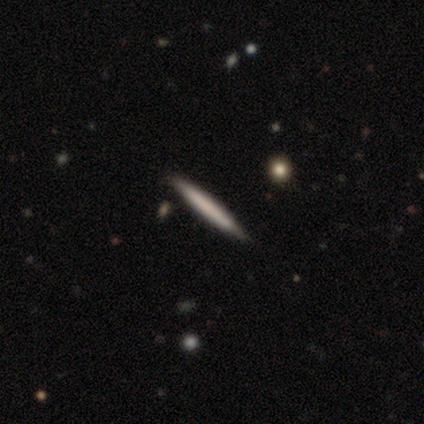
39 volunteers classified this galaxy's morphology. This appears to be a smooth galaxy with no disk features (46%, tied with featured or disk) that is cigar-shaped (100%). Merging: none (86%).